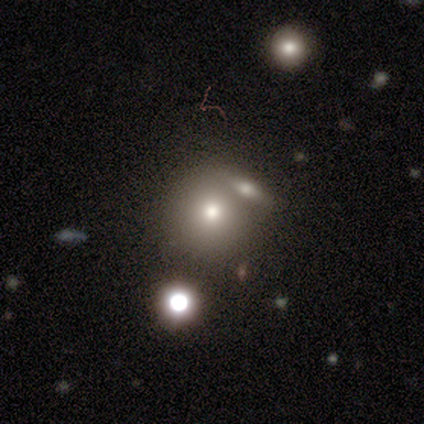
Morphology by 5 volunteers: Smooth or featured?
  - smooth: 80% *
  - featured or disk: 20%
  - star or artifact: 0%
How rounded?
  - round: 100% *
  - in between: 0%
  - cigar-shaped: 0%
Merging?
  - merger: 60% *
  - none: 40%
  - minor disturbance: 0%
  - major disturbance: 0%